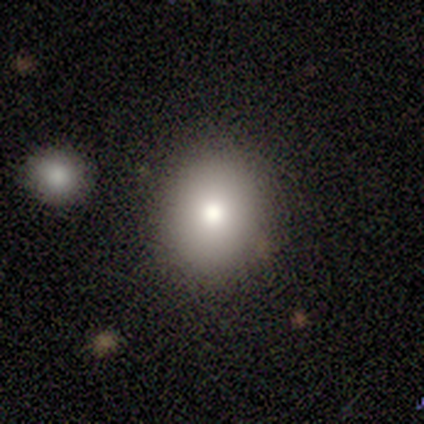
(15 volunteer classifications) A smooth galaxy with no disk features (87%) that is round (62%). Merging: none (93%).